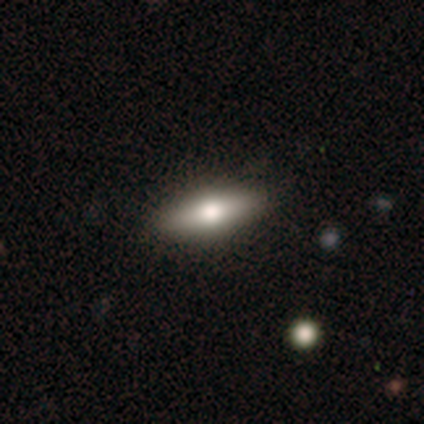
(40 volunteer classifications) A smooth galaxy with no disk features (62%) that is in between round and cigar-shaped (60%).

Vote fractions:
- Smooth or featured? smooth: 62% / featured or disk: 38% / star or artifact: 0%
- How rounded? in between: 60% / cigar-shaped: 40% / round: 0%
- Merging? none: 55% / merger: 5% / major disturbance: 2% / minor disturbance: 0%